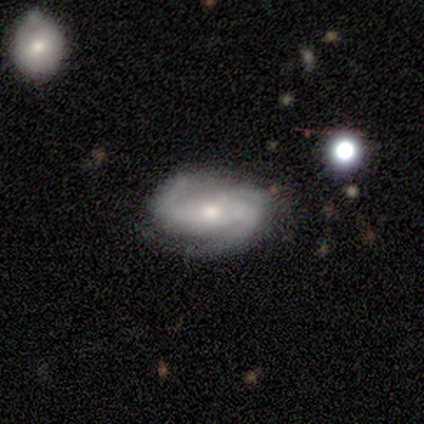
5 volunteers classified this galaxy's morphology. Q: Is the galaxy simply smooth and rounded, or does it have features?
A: featured or disk — 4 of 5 (80%).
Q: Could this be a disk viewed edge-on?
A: no — 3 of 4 (75%).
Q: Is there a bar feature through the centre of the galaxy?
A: no — 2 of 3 (67%).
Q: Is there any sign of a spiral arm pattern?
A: yes — 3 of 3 (100%).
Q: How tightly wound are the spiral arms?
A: tight — 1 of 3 (33%, tied with medium and loose).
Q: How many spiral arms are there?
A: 3 — 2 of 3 (67%).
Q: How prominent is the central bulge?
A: small — 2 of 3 (67%).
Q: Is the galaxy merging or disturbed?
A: none — 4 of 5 (80%).